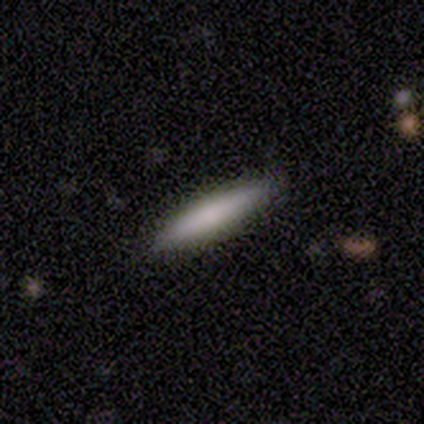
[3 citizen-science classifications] Smooth or featured? smooth (100%)
How rounded? cigar-shaped (100%)
Merging? none (100%)